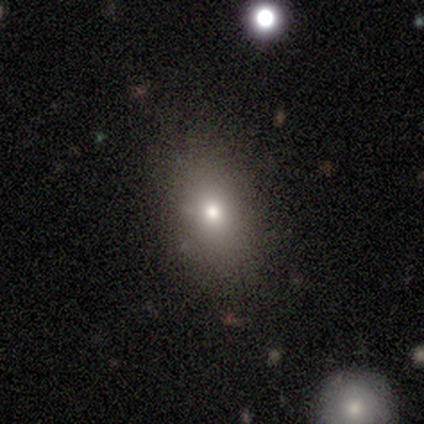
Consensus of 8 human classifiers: Smooth or featured: smooth — 75% (featured or disk — 12%)
How rounded: in between — 67% (round — 33%)
Merging: none — 86% (minor disturbance — 14%)